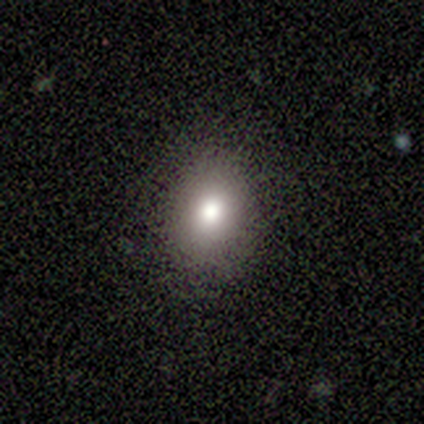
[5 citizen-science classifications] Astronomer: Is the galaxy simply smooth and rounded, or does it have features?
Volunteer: smooth — 40%, tied with star or artifact at 40%.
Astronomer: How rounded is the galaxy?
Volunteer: round — 50%, tied with in between at 50%.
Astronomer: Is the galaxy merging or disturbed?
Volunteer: none — 100%.